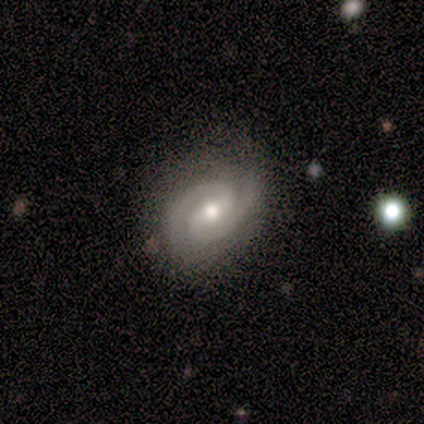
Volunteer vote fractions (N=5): featured or disk 80%, star or artifact 20%, smooth 0%. Down the decision tree: edge-on disk — no (100%); bar — weak (75%); spiral arms — yes (100%); spiral arm count — 2 (100%); spiral winding — tight (50%, tied with medium); bulge size — moderate (75%); merging — none (100%).